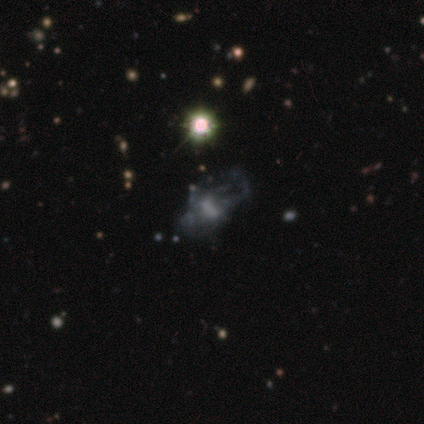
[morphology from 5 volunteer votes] Q: Smooth or featured?
A: featured or disk (40%); tied with: star or artifact (40%)
Q: Edge-on disk?
A: no (100%)
Q: Bar?
A: no (100%)
Q: Spiral arms?
A: no (100%)
Q: Bulge size?
A: none (100%)
Q: Merging?
A: none (67%); runner-up: merger (33%)